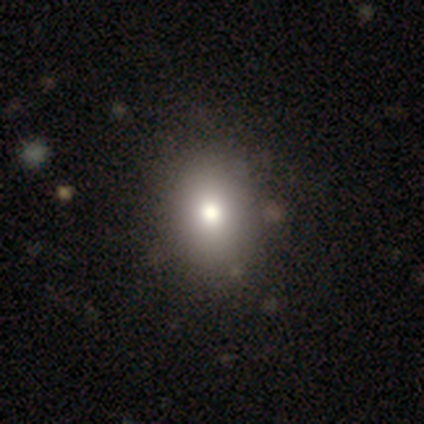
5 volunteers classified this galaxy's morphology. smooth-or-featured: smooth: 80% | star or artifact: 20% | featured or disk: 0%
  how-rounded: in between: 100% | round: 0% | cigar-shaped: 0%
  merging: none: 50% (tied) | minor disturbance: 50% (tied) | major disturbance: 0% | merger: 0%